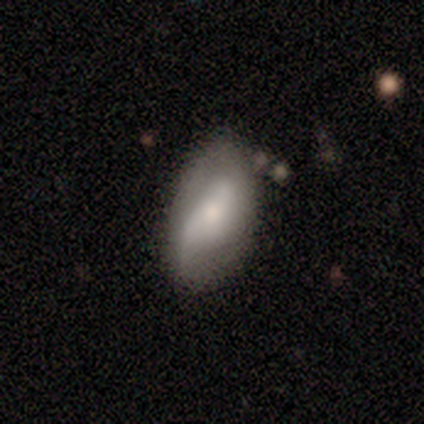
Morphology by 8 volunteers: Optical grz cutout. It shows a featured or disk galaxy (75%) with no bar (67%), no spiral arms (67%) and a small central bulge (50%). Merging: none (29%, tied with minor disturbance and major disturbance).